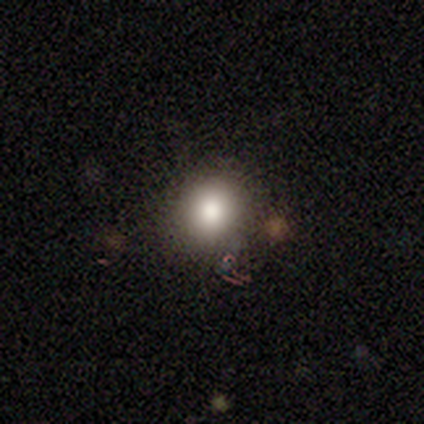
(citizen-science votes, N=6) A smooth galaxy with no disk features (83%) that is round (100%). Merging: none (100%).